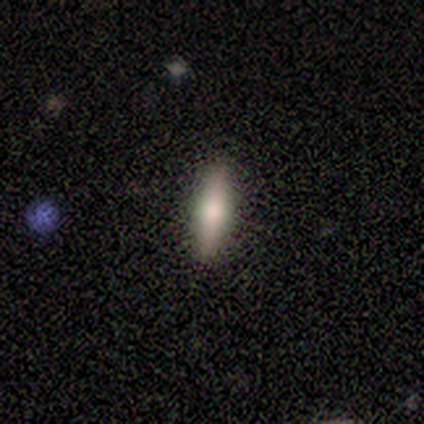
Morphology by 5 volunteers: This is likely a featured or disk galaxy (60%). It is clearly viewed edge-on (100%). Edge-on bulge: likely rounded (67%). Merging: clearly none (80%).